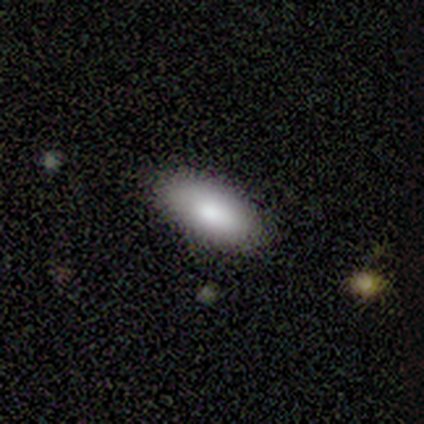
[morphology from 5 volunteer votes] Smooth or featured? 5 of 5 (100%) said smooth. How rounded? 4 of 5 (80%) said in between. Merging? 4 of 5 (80%) said none.